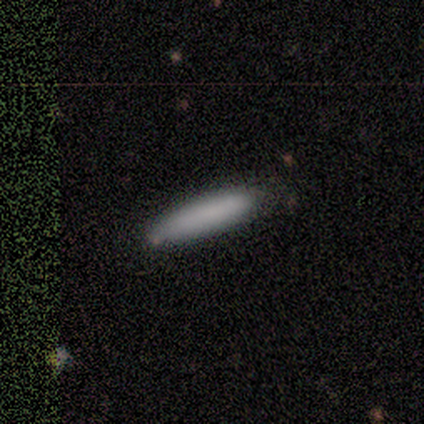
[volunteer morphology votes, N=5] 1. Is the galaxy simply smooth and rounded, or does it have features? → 100% smooth, 0% featured or disk, 0% star or artifact.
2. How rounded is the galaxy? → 60% cigar-shaped, 40% in between, 0% round.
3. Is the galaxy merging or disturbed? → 80% none, 20% minor disturbance, 0% major disturbance, 0% merger.